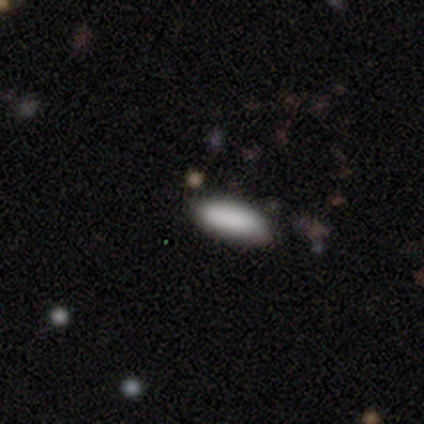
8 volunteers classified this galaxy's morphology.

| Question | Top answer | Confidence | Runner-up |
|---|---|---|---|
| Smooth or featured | smooth | 88% | star or artifact (12%) |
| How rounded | in between | 71% | cigar-shaped (29%) |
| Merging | none | 86% | minor disturbance (14%) |